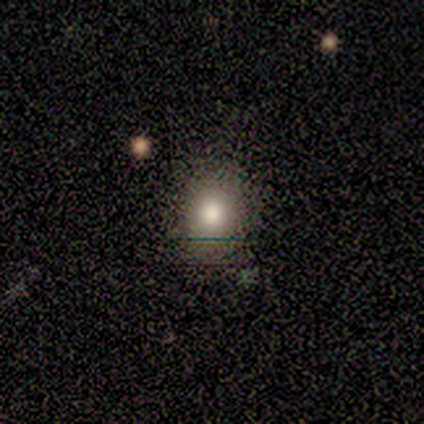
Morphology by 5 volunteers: Volunteers were most divided on "how rounded": round: 67%, in between: 33%, cigar-shaped: 0%. More confident: merging — none (100%); smooth or featured — smooth (60%).